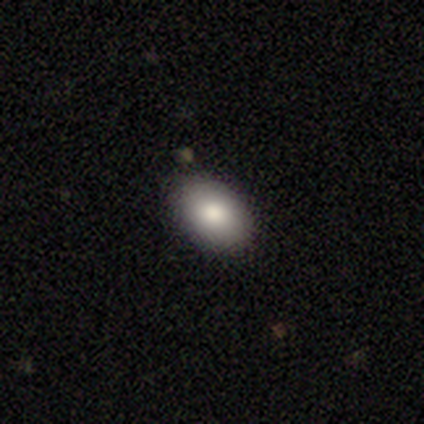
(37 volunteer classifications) Smooth or featured? 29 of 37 (78%) said smooth. How rounded? 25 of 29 (86%) said in between. Merging? 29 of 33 (88%) said none.